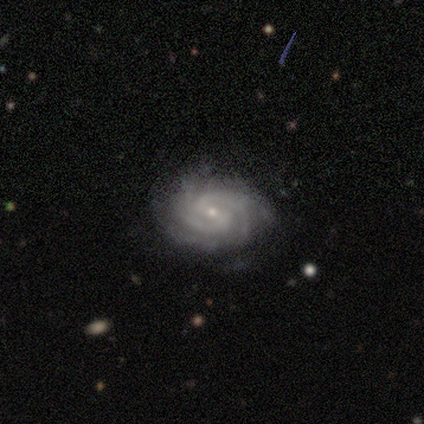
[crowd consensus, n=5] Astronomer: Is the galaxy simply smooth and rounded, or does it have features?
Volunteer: featured or disk — 100%.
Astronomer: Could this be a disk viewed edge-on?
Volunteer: no — 100%.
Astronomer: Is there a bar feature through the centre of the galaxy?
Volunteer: weak — 60%.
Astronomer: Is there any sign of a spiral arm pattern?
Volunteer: yes — 100%.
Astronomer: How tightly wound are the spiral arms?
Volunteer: tight — 60% (runner-up: medium, 40%).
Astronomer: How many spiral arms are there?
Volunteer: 3 — 60%.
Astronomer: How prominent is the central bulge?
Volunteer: small — 80%.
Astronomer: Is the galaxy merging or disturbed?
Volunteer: none — 60% (runner-up: minor disturbance, 40%).